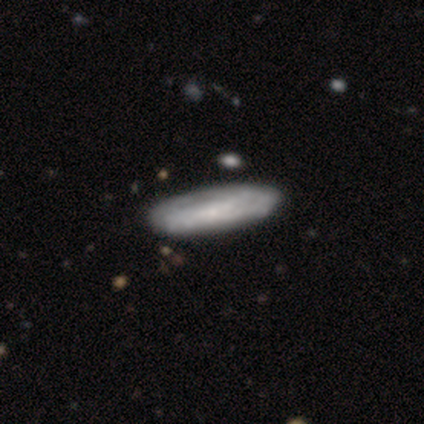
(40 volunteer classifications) featured or disk 62%, smooth 32%, star or artifact 5%. Down the decision tree: edge-on disk — no (72%); bar — no (78%); spiral arms — yes (56%); spiral arm count — can't tell (70%); spiral winding — tight (50%); bulge size — small (56%); merging — none (53%).